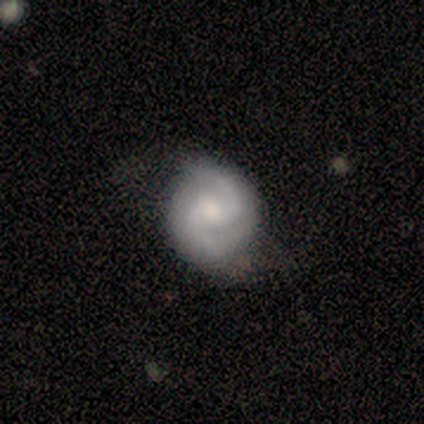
Smooth or featured? 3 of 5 (60%) said featured or disk. Edge-on disk? 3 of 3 (100%) said no. Bar? 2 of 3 (67%) said weak. Spiral arms? 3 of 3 (100%) said yes. Spiral winding? 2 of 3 (67%) said medium. Spiral arm count? 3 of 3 (100%) said 2. Bulge size? 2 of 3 (67%) said none. Merging? 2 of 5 (40%, tied with minor disturbance) said none.